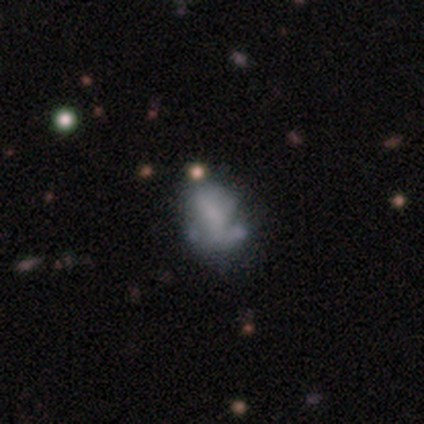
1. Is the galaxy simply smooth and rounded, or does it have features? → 60% featured or disk, 40% smooth, 0% star or artifact.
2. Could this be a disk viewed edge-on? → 100% no, 0% yes.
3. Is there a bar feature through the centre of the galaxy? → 67% no, 33% weak, 0% strong.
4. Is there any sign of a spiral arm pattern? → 67% no, 33% yes.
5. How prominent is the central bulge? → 67% small, 33% none, 0% dominant, 0% large, 0% moderate.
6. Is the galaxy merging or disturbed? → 80% minor disturbance, 20% none, 0% major disturbance, 0% merger.